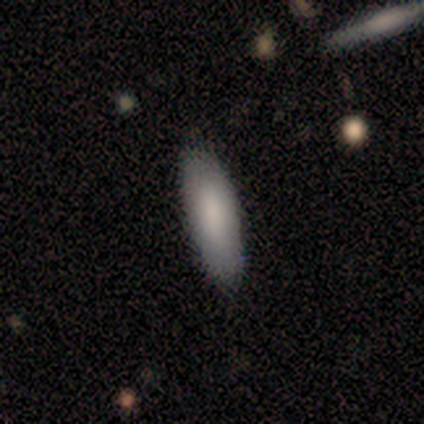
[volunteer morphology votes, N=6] This appears to be a smooth galaxy with no disk features (83%) that is in between round and cigar-shaped (80%). Merging: none (83%).